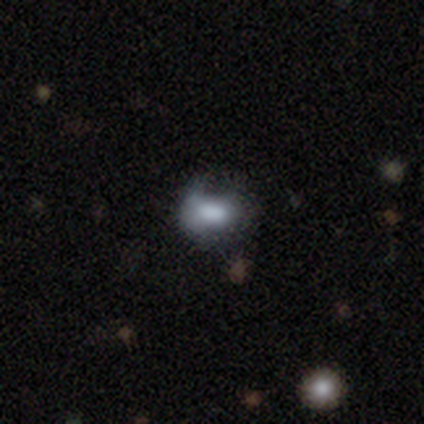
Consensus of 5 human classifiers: This is likely a featured or disk galaxy (60%). It is clearly not viewed edge-on (100%). Bar: clearly no (100%). Spiral arm pattern: clearly no (100%). Central bulge: likely moderate (67%). Merging: marginally none (40%, tied with minor disturbance).